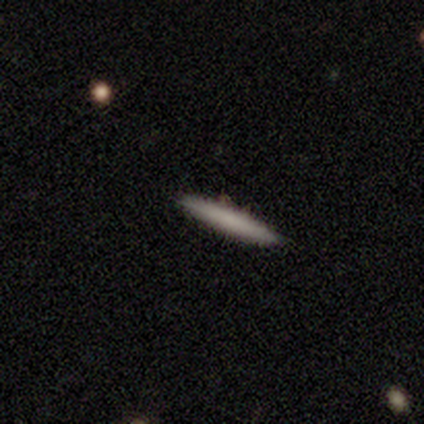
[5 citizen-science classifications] Smooth or featured: smooth — 60% (featured or disk — 40%)
How rounded: cigar-shaped — 100%
Merging: none — 100%